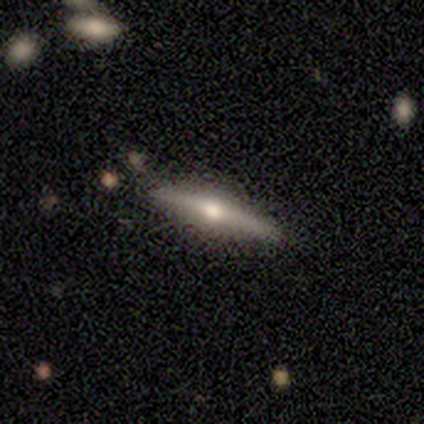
Smooth or featured? 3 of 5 (60%) said featured or disk. Edge-on disk? 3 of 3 (100%) said yes. Edge-on bulge? 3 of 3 (100%) said rounded. Merging? 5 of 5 (100%) said none.